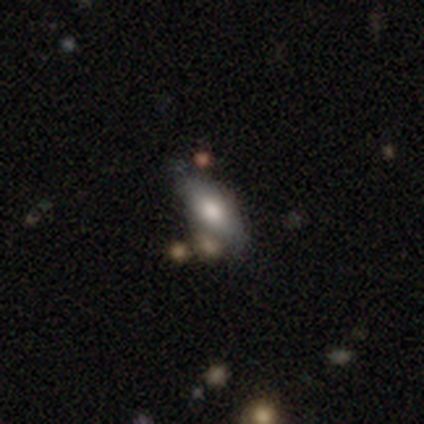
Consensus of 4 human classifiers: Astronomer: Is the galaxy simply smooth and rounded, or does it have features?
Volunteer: smooth — 50%.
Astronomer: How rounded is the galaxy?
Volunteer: in between — 100%.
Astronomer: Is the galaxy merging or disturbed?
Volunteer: none — 67%.